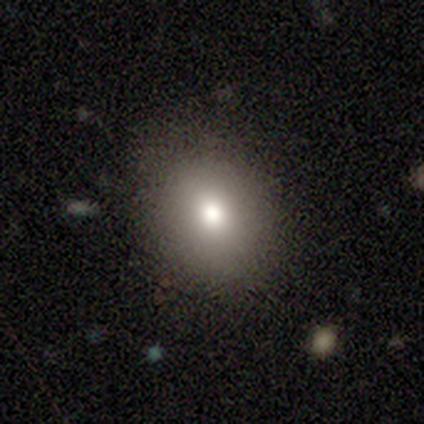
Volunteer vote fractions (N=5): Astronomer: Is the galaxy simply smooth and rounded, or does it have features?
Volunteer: smooth — 80%.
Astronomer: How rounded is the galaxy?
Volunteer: round — 75%.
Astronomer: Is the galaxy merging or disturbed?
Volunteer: none — 100%.